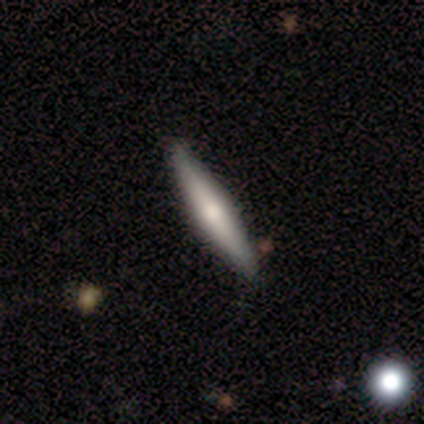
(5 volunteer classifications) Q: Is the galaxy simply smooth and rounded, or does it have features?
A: featured or disk — 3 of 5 (60%).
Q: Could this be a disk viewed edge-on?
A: yes — 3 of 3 (100%).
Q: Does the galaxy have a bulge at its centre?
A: rounded — 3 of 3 (100%).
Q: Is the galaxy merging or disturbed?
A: none — 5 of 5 (100%).